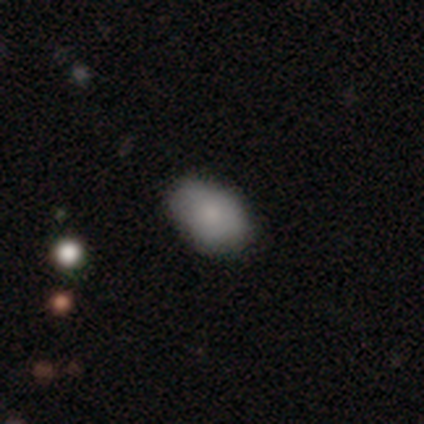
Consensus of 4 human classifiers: smooth-or-featured: smooth: 75% | featured or disk: 25% | star or artifact: 0%
  how-rounded: in between: 100% | round: 0% | cigar-shaped: 0%
  merging: none: 75% | minor disturbance: 25% | major disturbance: 0% | merger: 0%